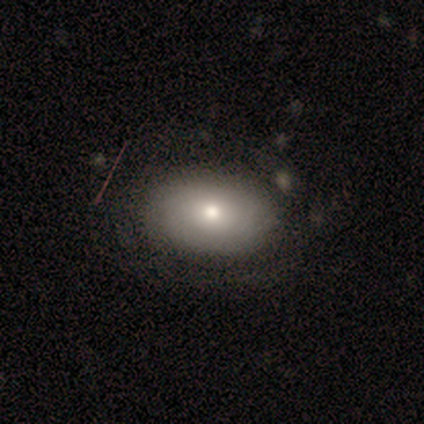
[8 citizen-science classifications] A featured or disk galaxy (62%) with no bar (100%), no spiral arms (60%) and a moderate central bulge (60%).

Vote fractions:
- Smooth or featured? featured or disk: 62% / smooth: 25% / star or artifact: 12%
- Edge-on disk? no: 100% / yes: 0%
- Bar? no: 100% / strong: 0% / weak: 0%
- Spiral arms? no: 60% / yes: 40%
- Bulge size? moderate: 60% / large: 20% / small: 20% / dominant: 0% / none: 0%
- Merging? none: 71% / minor disturbance: 29% / major disturbance: 0% / merger: 0%